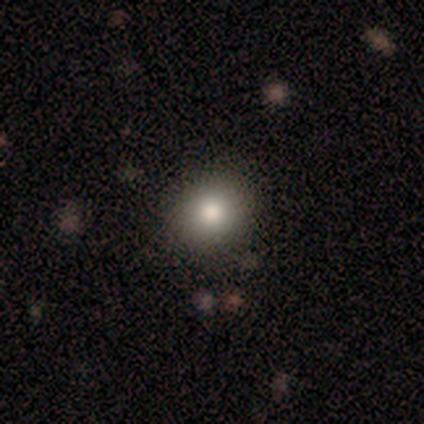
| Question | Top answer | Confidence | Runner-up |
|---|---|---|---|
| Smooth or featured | smooth | 75% | star or artifact (25%) |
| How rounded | round | 100% | — |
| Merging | none | 100% | — |